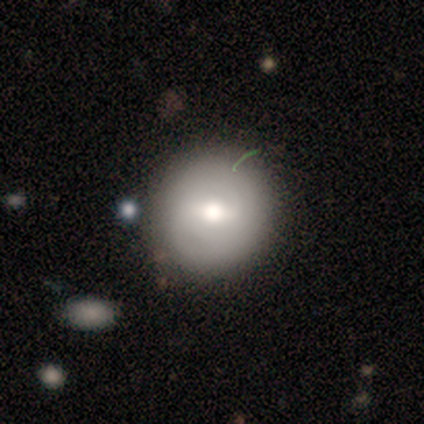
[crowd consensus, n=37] Overall: smooth (73%). How rounded: round (85%). Merging: none (73%).